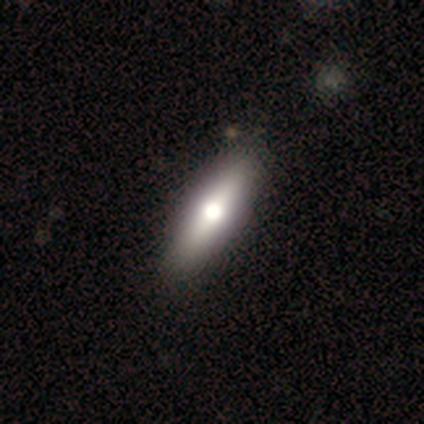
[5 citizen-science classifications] Smooth or featured?
  - smooth: 80% *
  - featured or disk: 20%
  - star or artifact: 0%
How rounded?
  - in between: 50% * (tied)
  - cigar-shaped: 50% * (tied)
  - round: 0%
Merging?
  - none: 100% *
  - minor disturbance: 0%
  - major disturbance: 0%
  - merger: 0%